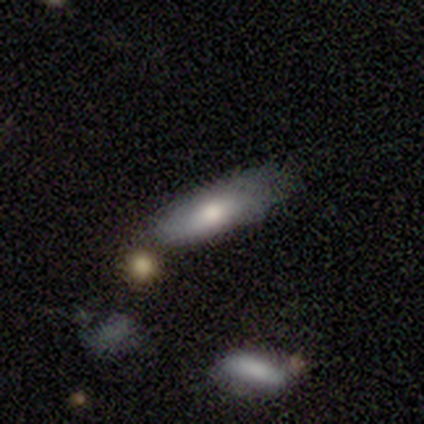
A smooth galaxy with no disk features (100%) that is cigar-shaped (67%).

Vote fractions:
- Smooth or featured? smooth: 100% / featured or disk: 0% / star or artifact: 0%
- How rounded? cigar-shaped: 67% / in between: 33% / round: 0%
- Merging? none: 100% / minor disturbance: 0% / major disturbance: 0% / merger: 0%